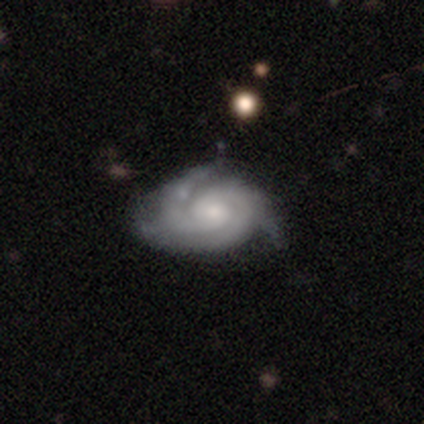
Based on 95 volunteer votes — Smooth or featured? 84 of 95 (88%) said featured or disk. Edge-on disk? 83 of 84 (99%) said no. Bar? 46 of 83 (55%) said no. Spiral arms? 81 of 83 (98%) said yes. Spiral winding? 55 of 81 (68%) said tight. Spiral arm count? 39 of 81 (48%) said 3. Bulge size? 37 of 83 (45%) said small. Merging? 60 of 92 (65%) said none.